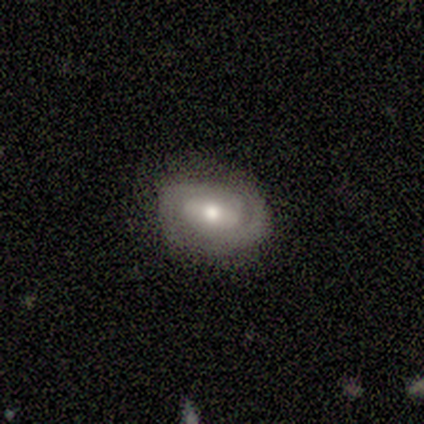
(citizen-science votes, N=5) smooth-or-featured: featured or disk: 80% | smooth: 20% | star or artifact: 0%
  disk-edge-on: no: 75% | yes: 25%
    bar: weak: 67% | no: 33% | strong: 0%
    has-spiral-arms: yes: 100% | no: 0%
      spiral-winding: tight: 100% | medium: 0% | loose: 0%
      spiral-arm-count: 2: 100% | 1: 0% | 3: 0% | 4: 0% | more than 4: 0% | can't tell: 0%
    bulge-size: moderate: 67% | small: 33% | dominant: 0% | large: 0% | none: 0%
  merging: none: 100% | minor disturbance: 0% | major disturbance: 0% | merger: 0%